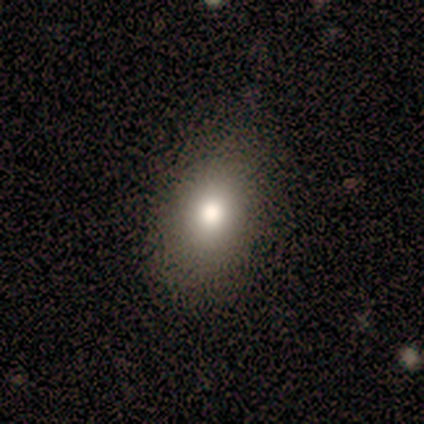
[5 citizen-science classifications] Smooth or featured? smooth (80%)
How rounded? in between (75%)
Merging? none (75%)